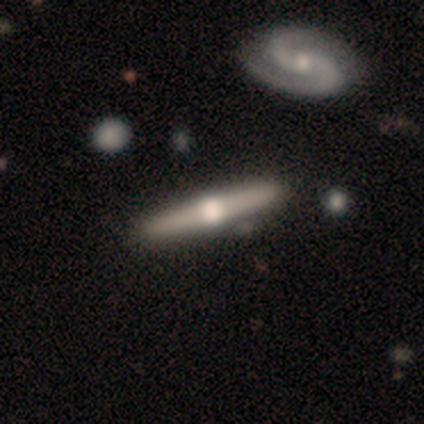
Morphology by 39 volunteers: Smooth or featured: featured or disk — 87% (smooth — 13%)
Edge-on disk: yes — 100%
Edge-on bulge: rounded — 97% (boxy — 3%)
Merging: none — 51% (merger — 18%)